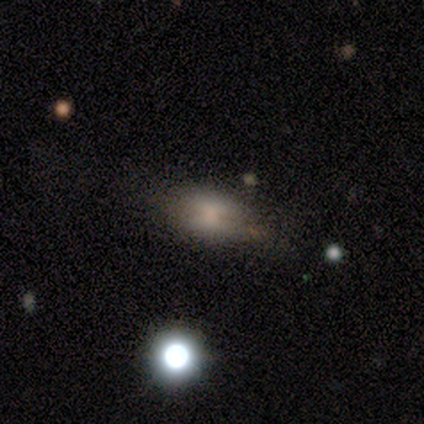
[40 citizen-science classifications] This is likely a smooth galaxy (65%). How rounded: clearly in between (81%). Merging: possibly none (49%).